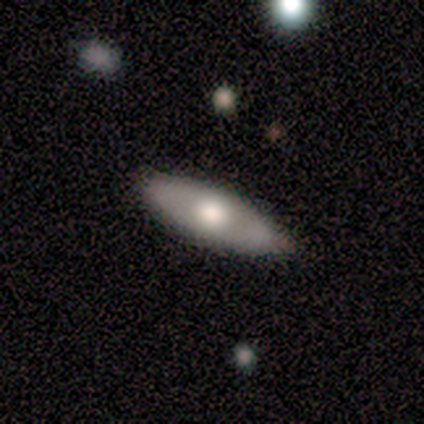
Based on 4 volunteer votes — Q: Smooth or featured?
A: smooth (50%); tied with: featured or disk (50%)
Q: How rounded?
A: in between (100%)
Q: Merging?
A: none (100%)